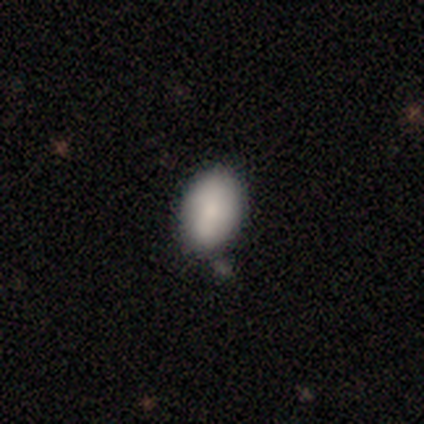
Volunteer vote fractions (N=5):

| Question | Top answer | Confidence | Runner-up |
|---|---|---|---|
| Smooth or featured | smooth | 80% | star or artifact (20%) |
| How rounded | in between | 100% | — |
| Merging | none | 100% | — |